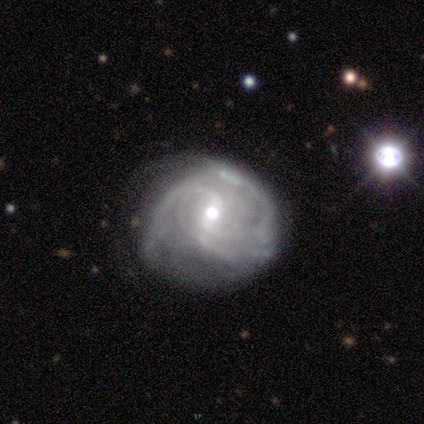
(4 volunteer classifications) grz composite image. It shows a featured or disk galaxy (100%) with a weak bar (75%), 2 (75%) loose (50%) spiral arms (100%) and a moderate central bulge (100%). Merging: none (75%).